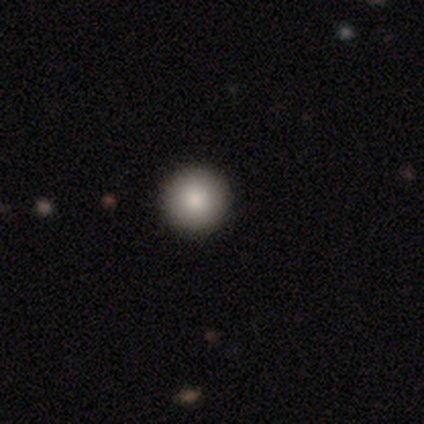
A smooth galaxy with no disk features (100%) that is round (100%).

Vote fractions:
- Smooth or featured? smooth: 100% / featured or disk: 0% / star or artifact: 0%
- How rounded? round: 100% / in between: 0% / cigar-shaped: 0%
- Merging? none: 100% / minor disturbance: 0% / major disturbance: 0% / merger: 0%